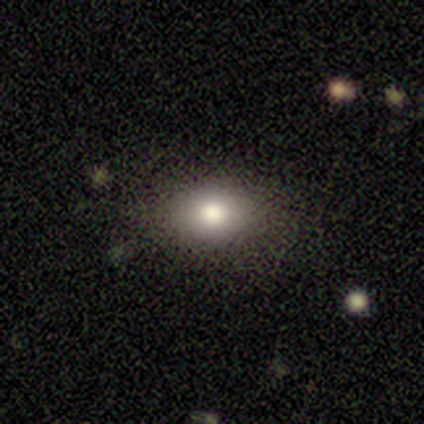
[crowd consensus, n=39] smooth-or-featured: smooth: 72% | featured or disk: 15% | star or artifact: 13%
  how-rounded: in between: 57% | round: 39% | cigar-shaped: 4%
  merging: none: 85% | minor disturbance: 9% | merger: 6% | major disturbance: 0%